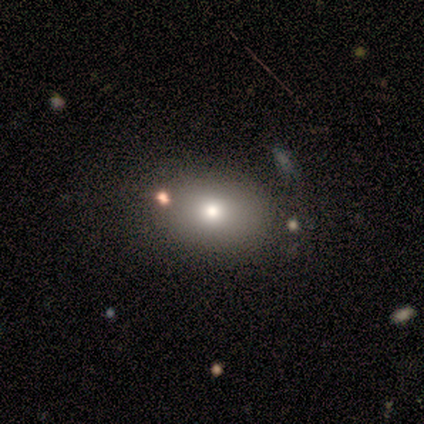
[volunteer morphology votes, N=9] This appears to be a smooth galaxy with no disk features (89%) that is in between round and cigar-shaped (62%). Merging: none (38%, tied with minor disturbance).